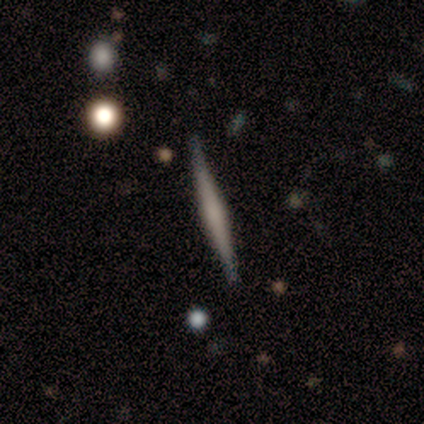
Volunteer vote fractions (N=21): Smooth or featured: featured or disk — 62% (smooth — 29%)
Edge-on disk: yes — 100%
Edge-on bulge: rounded — 54% (none — 38%)
Merging: none — 100%